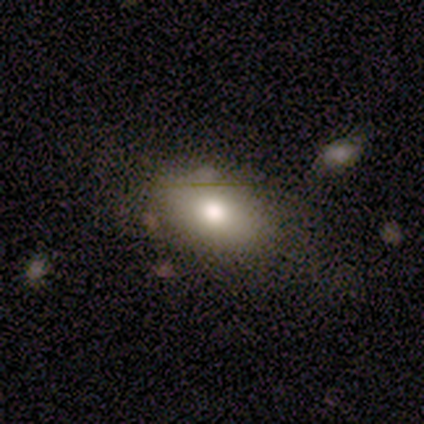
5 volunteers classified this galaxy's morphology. Smooth or featured? smooth (80%)
How rounded? in between (75%)
Merging? none (75%)